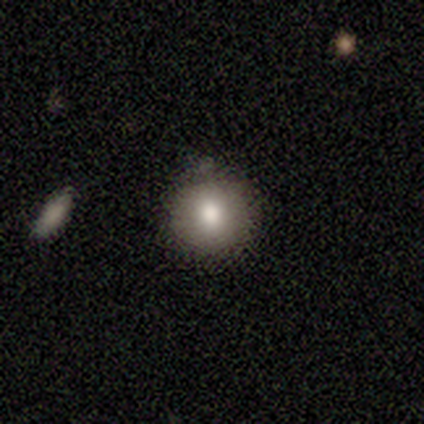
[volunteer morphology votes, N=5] smooth_or_featured: smooth (p=1.00)
how_rounded: round (p=1.00)
merging: none (p=0.60) [alt: minor disturbance p=0.40]